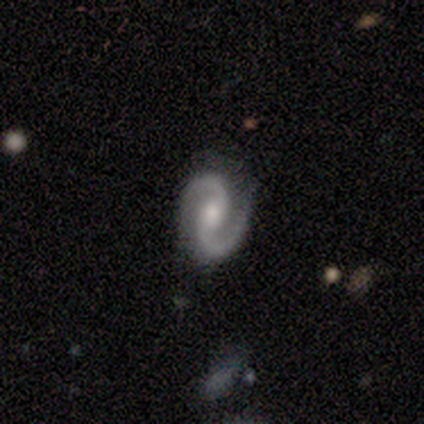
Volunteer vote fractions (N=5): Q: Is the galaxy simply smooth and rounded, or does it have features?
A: featured or disk — 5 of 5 (100%).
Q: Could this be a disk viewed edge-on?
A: no — 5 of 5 (100%).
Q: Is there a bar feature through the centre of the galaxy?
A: no — 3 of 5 (60%).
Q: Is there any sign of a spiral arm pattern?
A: yes — 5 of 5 (100%).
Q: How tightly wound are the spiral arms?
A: medium — 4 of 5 (80%).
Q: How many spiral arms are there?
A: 2 — 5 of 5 (100%).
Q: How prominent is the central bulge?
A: moderate — 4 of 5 (80%).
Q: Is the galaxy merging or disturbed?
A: none — 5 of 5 (100%).